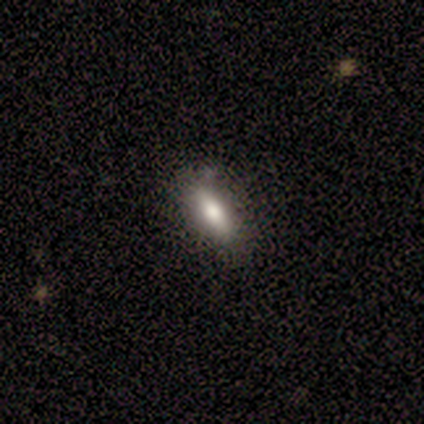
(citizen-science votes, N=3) A smooth galaxy with no disk features (100%) that is in between round and cigar-shaped (67%). Merging: none (67%).